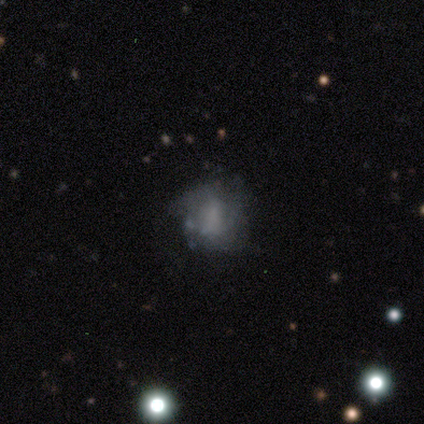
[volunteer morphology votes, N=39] smooth-or-featured: featured or disk: 49% | smooth: 36% | star or artifact: 15%
  disk-edge-on: no: 100% | yes: 0%
    bar: no: 68% | weak: 21% | strong: 11%
    has-spiral-arms: no: 53% | yes: 47%
    bulge-size: none: 42% | moderate: 32% | large: 11% | small: 11% | dominant: 5%
  merging: none: 70% | major disturbance: 15% | minor disturbance: 9% | merger: 6%